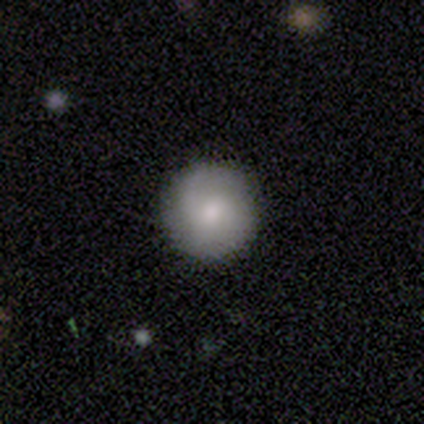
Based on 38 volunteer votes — smooth-or-featured: smooth: 63% | featured or disk: 34% | star or artifact: 3%
  how-rounded: round: 96% | in between: 4% | cigar-shaped: 0%
  merging: none: 95% | minor disturbance: 5% | major disturbance: 0% | merger: 0%